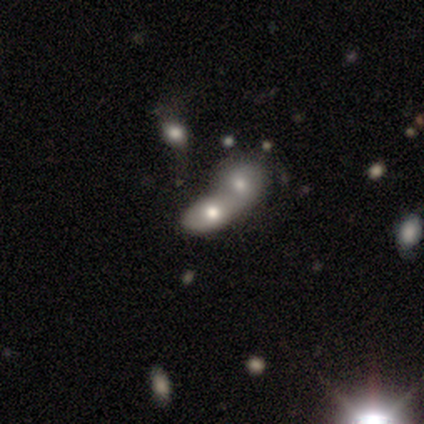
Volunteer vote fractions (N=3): Morphology: type=smooth (100%); roundness=in between (67%); merging=merger (100%).